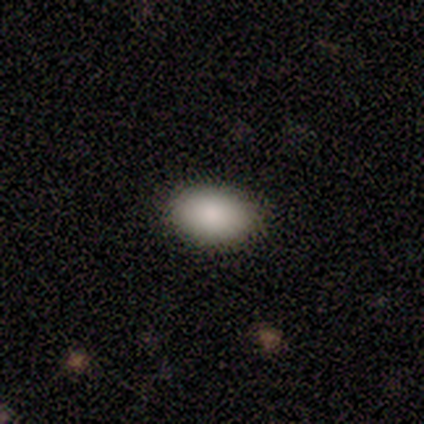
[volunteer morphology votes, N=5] type=smooth (80%); roundness=in between (100%); merging=none (100%).